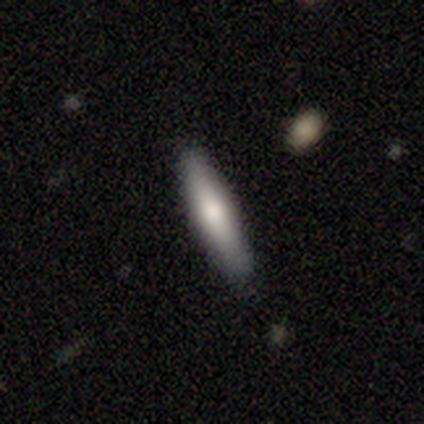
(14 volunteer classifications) Q: Smooth or featured?
A: smooth (71%); runner-up: star or artifact (21%)
Q: How rounded?
A: cigar-shaped (90%); runner-up: in between (10%)
Q: Merging?
A: none (91%); runner-up: minor disturbance (9%)